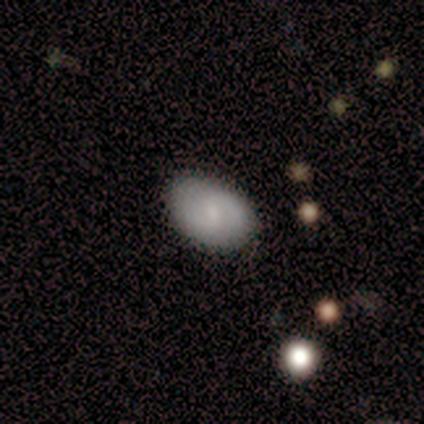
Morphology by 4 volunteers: A smooth galaxy with no disk features (75%) that is in between round and cigar-shaped (100%).

Vote fractions:
- Smooth or featured? smooth: 75% / star or artifact: 25% / featured or disk: 0%
- How rounded? in between: 100% / round: 0% / cigar-shaped: 0%
- Merging? none: 67% / minor disturbance: 33% / major disturbance: 0% / merger: 0%